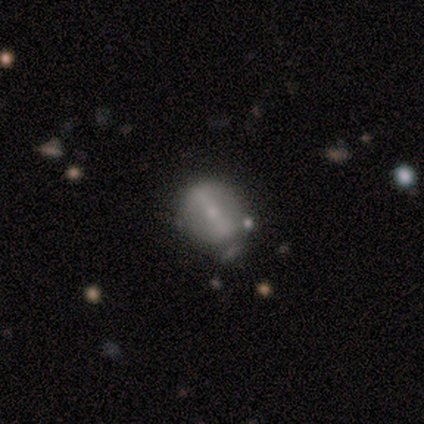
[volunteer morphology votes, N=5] Q: Smooth or featured?
A: featured or disk (80%); runner-up: smooth (20%)
Q: Edge-on disk?
A: no (100%)
Q: Bar?
A: strong (75%); runner-up: weak (25%)
Q: Spiral arms?
A: no (100%)
Q: Bulge size?
A: small (75%); runner-up: moderate (25%)
Q: Merging?
A: none (40%); tied with: minor disturbance (40%)